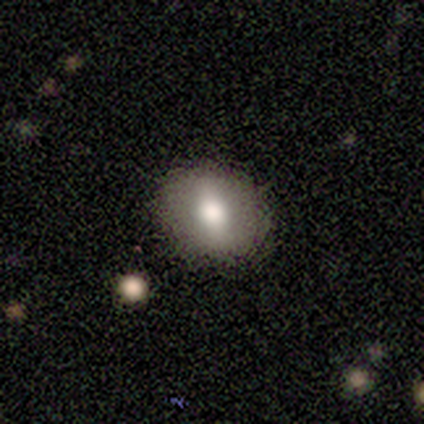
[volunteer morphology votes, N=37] Smooth or featured? smooth (68%)
How rounded? round (76%)
Merging? none (94%)